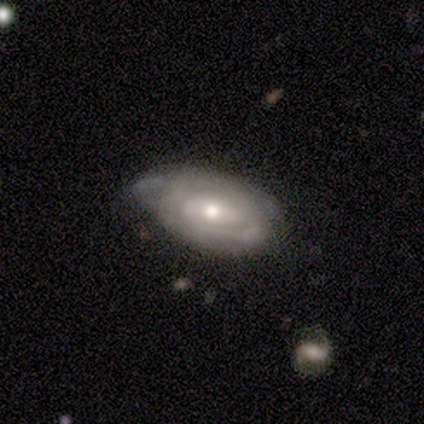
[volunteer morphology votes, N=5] smooth_or_featured: featured or disk (p=0.80) [alt: smooth p=0.20]
disk_edge_on: no (p=1.00)
bar: weak (p=0.50) [tied with: no p=0.50]
has_spiral_arms: yes (p=0.75) [alt: no p=0.25]
spiral_winding: tight (p=0.67) [alt: loose p=0.33]
spiral_arm_count: 1 (p=0.33) [tied with: 2 p=0.33, can't tell p=0.33]
bulge_size: small (p=0.75) [alt: moderate p=0.25]
merging: none (p=0.60) [alt: minor disturbance p=0.20]